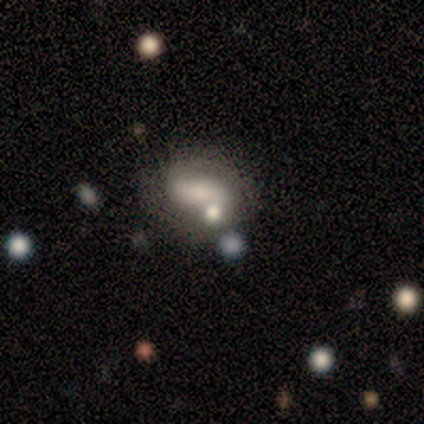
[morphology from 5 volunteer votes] Smooth or featured: smooth — 60% (featured or disk — 40%)
How rounded: in between — 67% (cigar-shaped — 33%)
Merging: merger — 60% (minor disturbance — 20%)